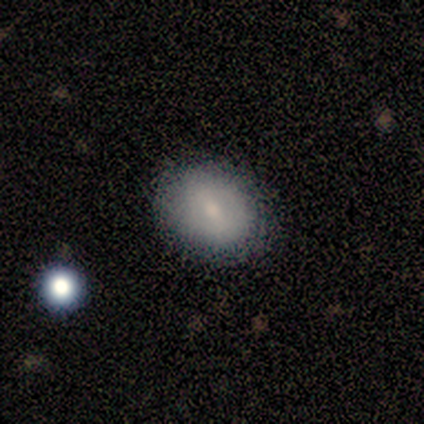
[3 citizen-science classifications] This appears to be a smooth galaxy with no disk features (67%) that is in between round and cigar-shaped (100%). Merging: none (67%).